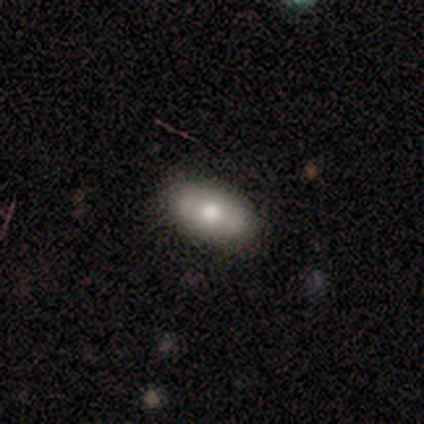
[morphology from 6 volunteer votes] Smooth or featured?
  - smooth: 83% *
  - star or artifact: 17%
  - featured or disk: 0%
How rounded?
  - in between: 100% *
  - round: 0%
  - cigar-shaped: 0%
Merging?
  - none: 60% *
  - minor disturbance: 40%
  - major disturbance: 0%
  - merger: 0%